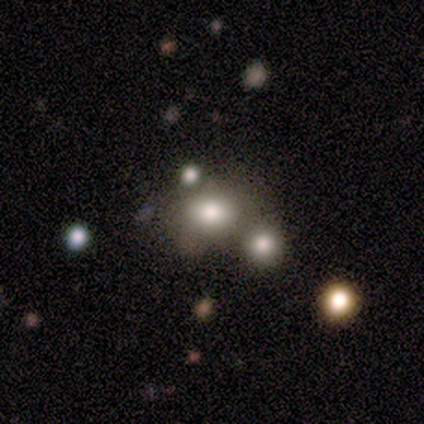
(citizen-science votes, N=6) smooth 67%, featured or disk 17%, star or artifact 17%. Down the decision tree: how rounded — round (100%); merging — none (60%).